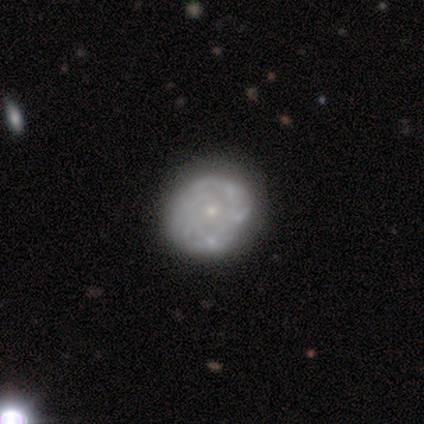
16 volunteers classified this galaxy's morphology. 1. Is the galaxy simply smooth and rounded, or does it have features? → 62% featured or disk, 38% smooth, 0% star or artifact.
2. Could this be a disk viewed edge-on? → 100% no, 0% yes.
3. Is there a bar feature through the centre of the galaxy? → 80% no, 20% weak, 0% strong.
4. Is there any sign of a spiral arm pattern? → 50% yes (tied), 50% no (tied).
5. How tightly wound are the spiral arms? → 80% tight, 20% loose, 0% medium.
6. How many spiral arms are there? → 60% can't tell, 20% 4, 20% more than 4, 0% 1, 0% 2, 0% 3.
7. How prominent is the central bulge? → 60% small, 40% moderate, 0% dominant, 0% large, 0% none.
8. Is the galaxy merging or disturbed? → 56% none, 25% major disturbance, 19% minor disturbance, 0% merger.